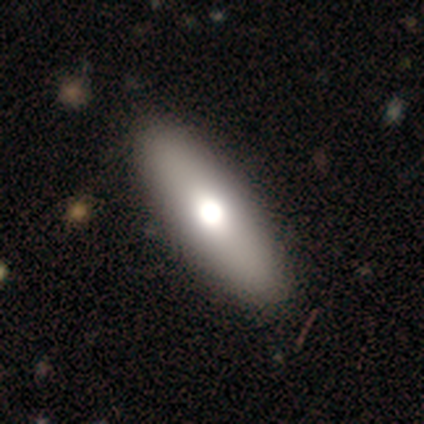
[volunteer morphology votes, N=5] Smooth or featured? smooth (80%)
How rounded? in between (50%, tied with cigar-shaped)
Merging? none (100%)